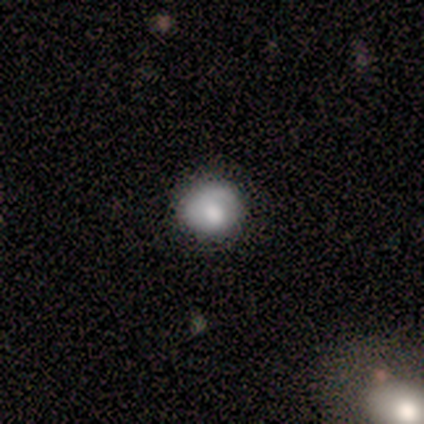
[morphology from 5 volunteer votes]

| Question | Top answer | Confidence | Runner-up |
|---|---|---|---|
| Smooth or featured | smooth | 100% | — |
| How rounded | round | 100% | — |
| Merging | none | 80% | minor disturbance (20%) |